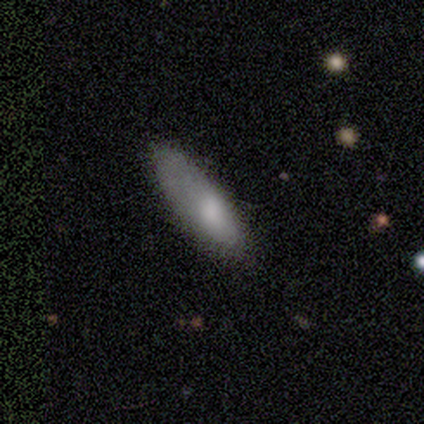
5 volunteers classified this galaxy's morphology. Q: Smooth or featured?
A: featured or disk (60%); runner-up: smooth (20%)
Q: Edge-on disk?
A: no (67%); runner-up: yes (33%)
Q: Bar?
A: no (100%)
Q: Spiral arms?
A: no (100%)
Q: Bulge size?
A: moderate (100%)
Q: Merging?
A: minor disturbance (75%); runner-up: none (25%)